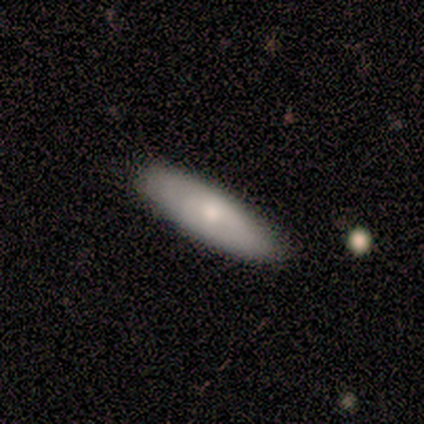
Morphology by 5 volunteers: A smooth galaxy with no disk features (60%) that is cigar-shaped (67%). Merging: none (80%).